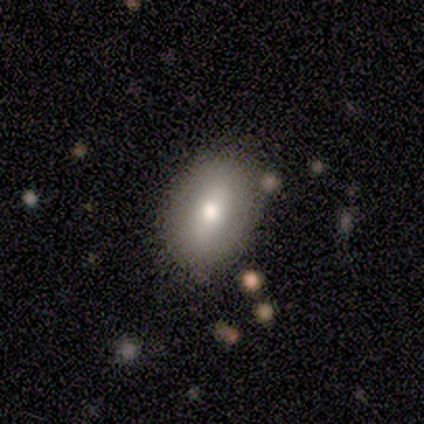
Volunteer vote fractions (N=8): Smooth or featured: smooth — 88% (star or artifact — 12%)
How rounded: in between — 71% (round — 14%)
Merging: none — 71% (minor disturbance — 29%)